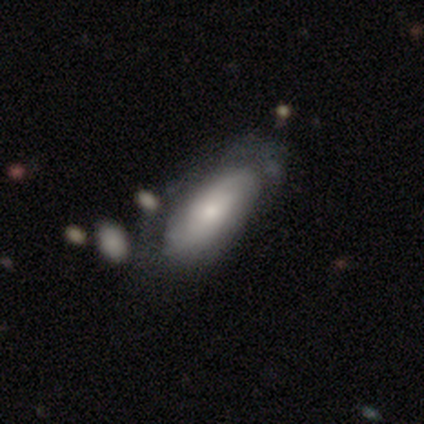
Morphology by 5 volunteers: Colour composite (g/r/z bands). It shows a smooth galaxy with no disk features (60%) that is in between round and cigar-shaped (100%). Merging: none (40%, tied with major disturbance).